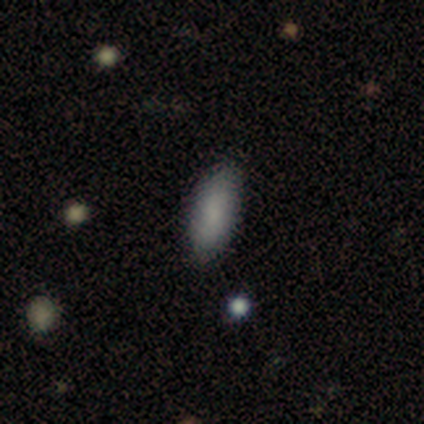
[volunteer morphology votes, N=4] A smooth galaxy with no disk features (75%) that is in between round and cigar-shaped (100%).

Vote fractions:
- Smooth or featured? smooth: 75% / featured or disk: 25% / star or artifact: 0%
- How rounded? in between: 100% / round: 0% / cigar-shaped: 0%
- Merging? none: 100% / minor disturbance: 0% / major disturbance: 0% / merger: 0%